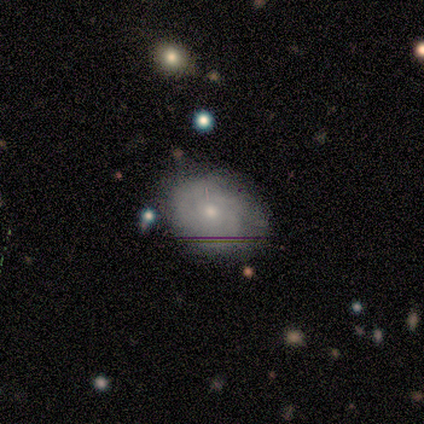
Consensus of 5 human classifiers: Morphology: type=featured or disk (80%); edge-on=no (100%); bar=no (100%); spiral arms=yes (100%); winding=tight (50%); arm count=can't tell (75%); bulge=small (75%); merging=none (60%).